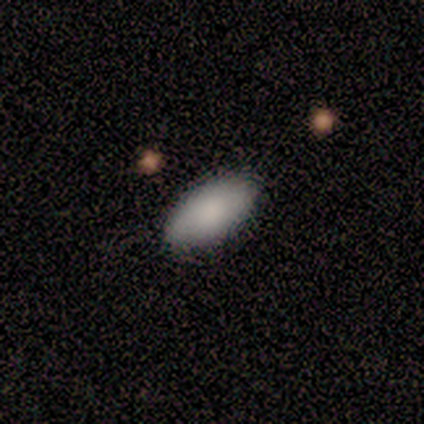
Morphology: type=smooth (100%); roundness=in between (100%); merging=none (80%).